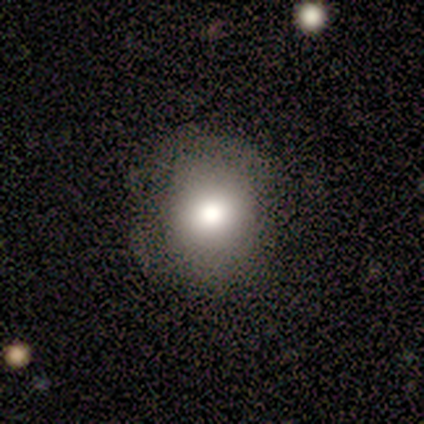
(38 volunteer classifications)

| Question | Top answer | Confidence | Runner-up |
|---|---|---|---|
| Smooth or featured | smooth | 76% | star or artifact (16%) |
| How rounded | round | 93% | in between (7%) |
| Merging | none | 78% | minor disturbance (16%) |